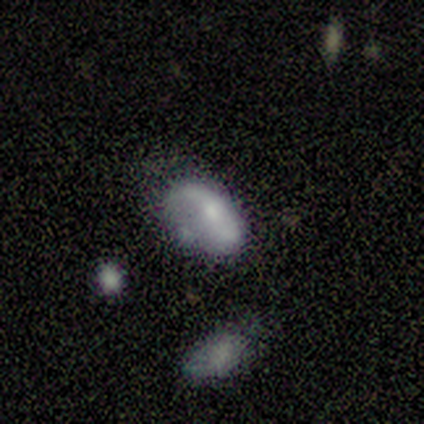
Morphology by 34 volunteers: Smooth or featured: smooth — 50% (featured or disk — 32%)
How rounded: in between — 94% (cigar-shaped — 6%)
Merging: minor disturbance — 39% (none — 32%)